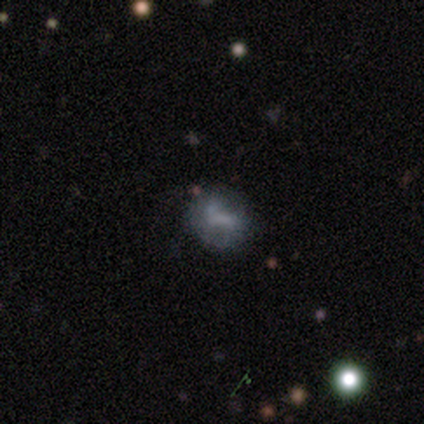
smooth 60%, featured or disk 40%, star or artifact 0%. Down the decision tree: how rounded — round (100%); merging — none (60%).